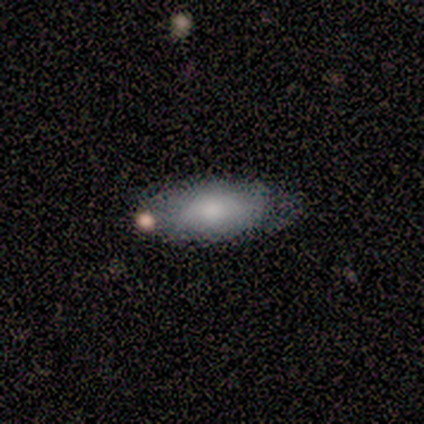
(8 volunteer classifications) Smooth or featured?
  - smooth: 75% *
  - featured or disk: 25%
  - star or artifact: 0%
How rounded?
  - in between: 100% *
  - round: 0%
  - cigar-shaped: 0%
Merging?
  - none: 88% *
  - minor disturbance: 12%
  - major disturbance: 0%
  - merger: 0%